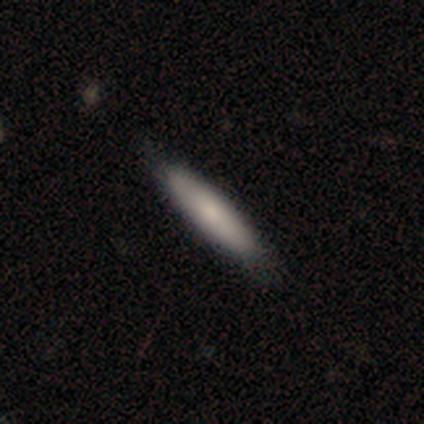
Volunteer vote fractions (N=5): This is clearly a featured or disk galaxy (80%). It is possibly viewed edge-on (50%, tied with no). Edge-on bulge: possibly none (50%, tied with rounded). Merging: likely none (60%).